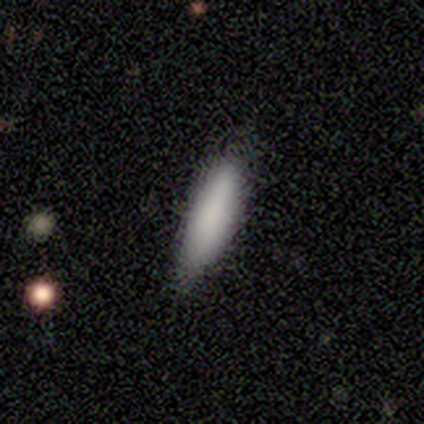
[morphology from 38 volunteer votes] This is clearly a smooth galaxy (97%). How rounded: likely cigar-shaped (62%). Merging: likely none (68%).